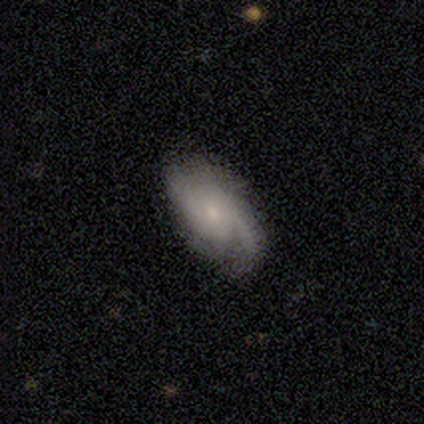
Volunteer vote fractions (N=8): A featured or disk galaxy (100%) with no bar (75%), 2 (88%) medium (38%, tied with loose) spiral arms (100%) and a small central bulge (75%).

Vote fractions:
- Smooth or featured? featured or disk: 100% / smooth: 0% / star or artifact: 0%
- Edge-on disk? no: 100% / yes: 0%
- Bar? no: 75% / weak: 25% / strong: 0%
- Spiral arms? yes: 100% / no: 0%
- Spiral winding? medium: 38% (tied) / loose: 38% (tied) / tight: 25%
- Spiral arm count? 2: 88% / 4: 12% / 1: 0% / 3: 0% / more than 4: 0% / can't tell: 0%
- Bulge size? small: 75% / moderate: 25% / dominant: 0% / large: 0% / none: 0%
- Merging? none: 62% / minor disturbance: 38% / major disturbance: 0% / merger: 0%